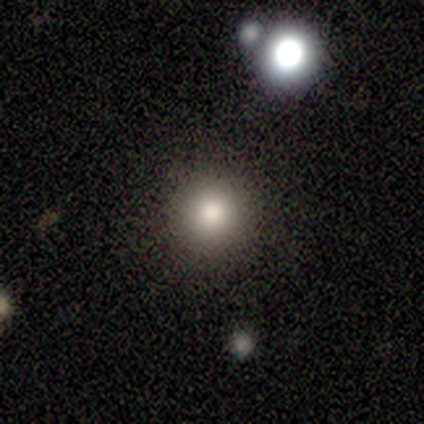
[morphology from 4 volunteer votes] smooth-or-featured: star or artifact: 50% | smooth: 25% | featured or disk: 25%